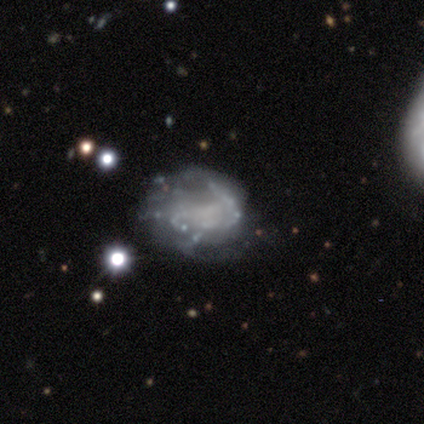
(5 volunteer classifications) Smooth or featured: featured or disk — 80% (star or artifact — 20%)
Edge-on disk: no — 100%
Bar: no — 100%
Spiral arms: yes — 75% (no — 25%)
Spiral winding: medium — 67% (tight — 33%)
Spiral arm count: 2 — 67% (3 — 33%)
Bulge size: none — 75% (moderate — 25%)
Merging: minor disturbance — 75% (none — 25%)